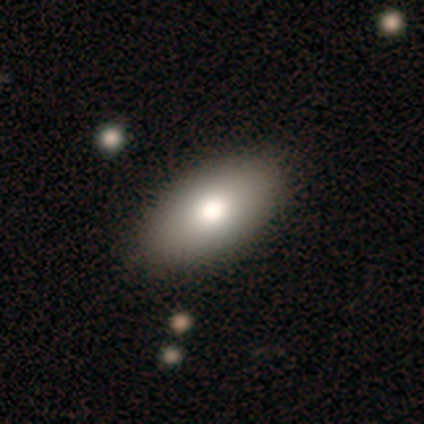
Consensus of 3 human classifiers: smooth_or_featured: smooth (p=0.67) [alt: featured or disk p=0.33]
how_rounded: in between (p=1.00)
merging: none (p=0.67) [alt: major disturbance p=0.33]